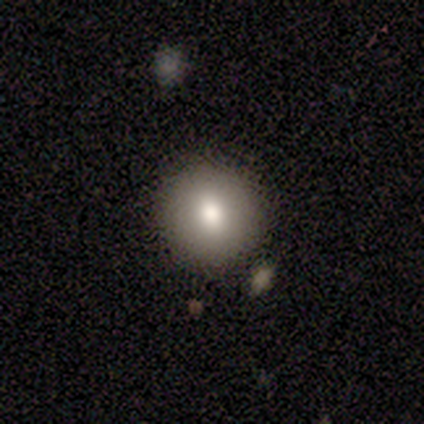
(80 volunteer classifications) smooth 80%, featured or disk 11%, star or artifact 9%. Down the decision tree: how rounded — round (92%); merging — none (53%).